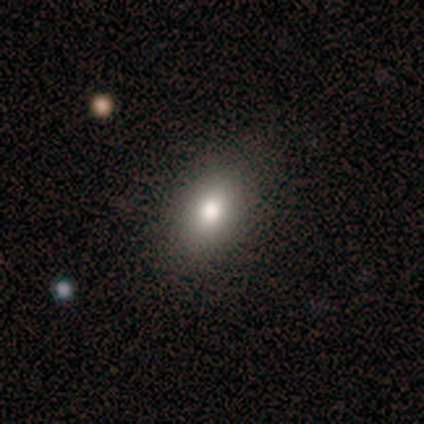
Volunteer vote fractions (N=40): A smooth galaxy with no disk features (75%) that is in between round and cigar-shaped (80%). Merging: none (97%).